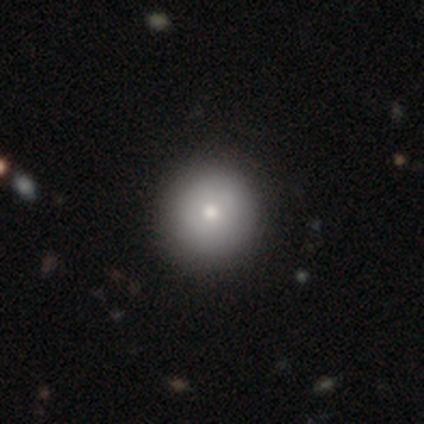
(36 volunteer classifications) smooth_or_featured: smooth (p=0.81) [alt: featured or disk p=0.19]
how_rounded: round (p=1.00)
merging: none (p=0.72) [alt: major disturbance p=0.03]